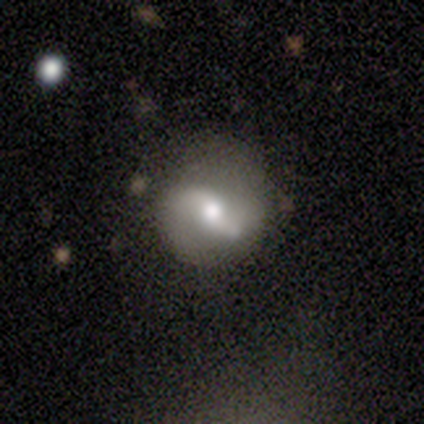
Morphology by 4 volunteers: Smooth or featured?
  - featured or disk: 100% *
  - smooth: 0%
  - star or artifact: 0%
Edge-on disk?
  - no: 100% *
  - yes: 0%
Bar?
  - weak: 50% *
  - strong: 25%
  - no: 25%
Spiral arms?
  - yes: 100% *
  - no: 0%
Spiral winding?
  - loose: 75% *
  - medium: 25%
  - tight: 0%
Spiral arm count?
  - 2: 75% *
  - 3: 25%
  - 1: 0%
  - 4: 0%
  - more than 4: 0%
  - can't tell: 0%
Bulge size?
  - moderate: 50% *
  - large: 25%
  - small: 25%
  - dominant: 0%
  - none: 0%
Merging?
  - none: 75% *
  - minor disturbance: 25%
  - major disturbance: 0%
  - merger: 0%